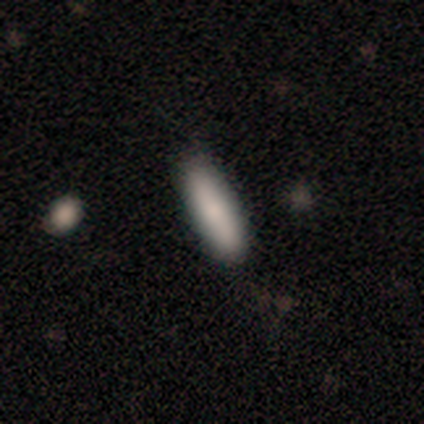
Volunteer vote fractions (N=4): Volunteers were most divided on "smooth or featured": smooth: 75%, star or artifact: 25%, featured or disk: 0%. More confident: how rounded — cigar-shaped (100%); merging — none (100%).